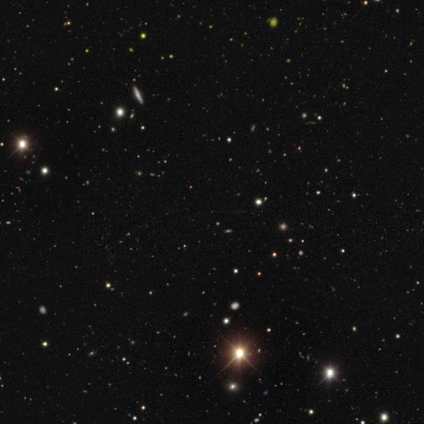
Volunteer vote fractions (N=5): A star or artifact, not a galaxy (100%).

Vote fractions:
- Smooth or featured? star or artifact: 100% / smooth: 0% / featured or disk: 0%